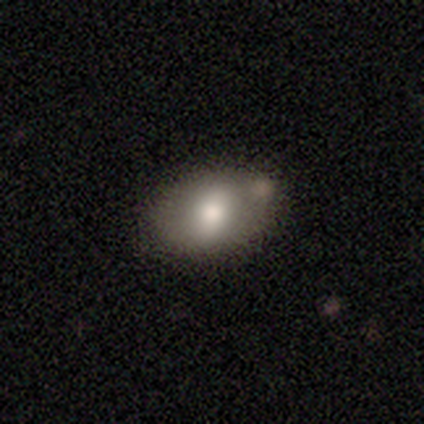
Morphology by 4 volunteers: Q: Smooth or featured?
A: smooth (75%); runner-up: featured or disk (25%)
Q: How rounded?
A: in between (67%); runner-up: round (33%)
Q: Merging?
A: none (100%)